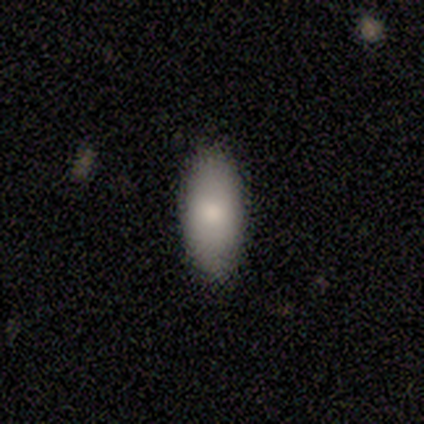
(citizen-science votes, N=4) Morphology: type=smooth (100%); roundness=in between (100%); merging=none (100%).